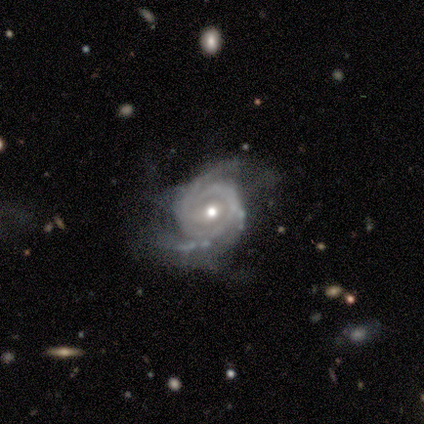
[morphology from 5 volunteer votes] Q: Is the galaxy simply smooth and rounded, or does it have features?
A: featured or disk — 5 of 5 (100%).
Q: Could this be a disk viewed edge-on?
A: no — 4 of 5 (80%).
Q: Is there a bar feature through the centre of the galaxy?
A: weak — 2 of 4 (50%).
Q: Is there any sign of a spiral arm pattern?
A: yes — 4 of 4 (100%).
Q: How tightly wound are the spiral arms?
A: tight — 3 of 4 (75%).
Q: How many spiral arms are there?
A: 2 — 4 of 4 (100%).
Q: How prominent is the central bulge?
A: moderate — 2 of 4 (50%, tied with small).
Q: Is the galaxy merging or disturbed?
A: none — 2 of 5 (40%, tied with major disturbance).